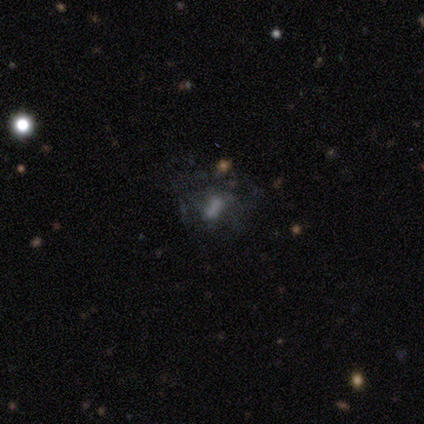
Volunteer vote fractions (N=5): Volunteers were most divided on "smooth or featured": smooth: 60%, featured or disk: 20%, star or artifact: 20%. More confident: how rounded — in between (100%); merging — major disturbance (75%).